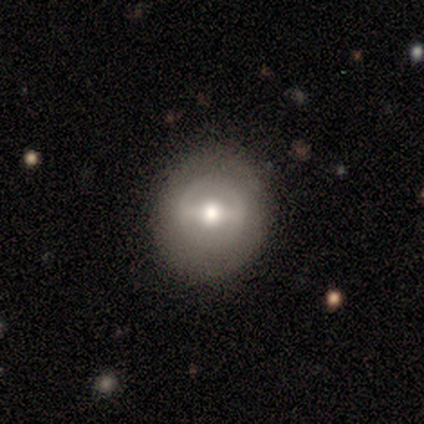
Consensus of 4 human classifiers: A star or artifact, not a galaxy (50%).

Vote fractions:
- Smooth or featured? star or artifact: 50% / smooth: 25% / featured or disk: 25%